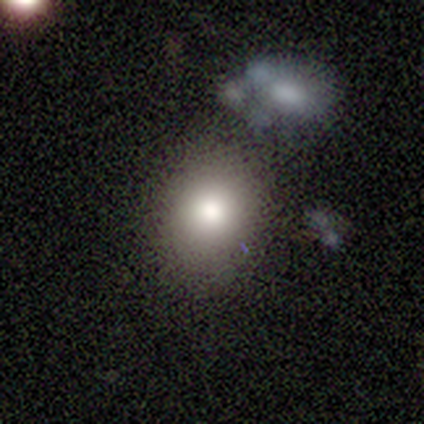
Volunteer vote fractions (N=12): Smooth or featured? smooth (83%)
How rounded? round (70%)
Merging? none (82%)